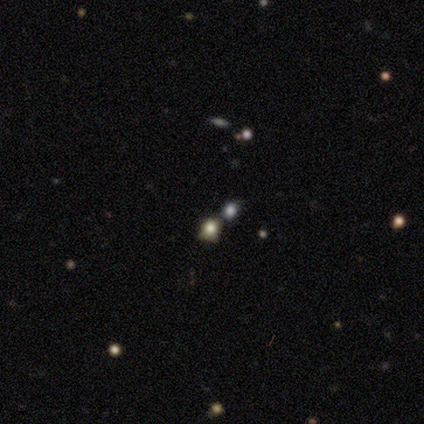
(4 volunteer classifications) smooth_or_featured: smooth (p=0.50) [alt: featured or disk p=0.25]
how_rounded: round (p=0.50) [tied with: in between p=0.50]
merging: minor disturbance (p=0.33) [tied with: major disturbance p=0.33, merger p=0.33]